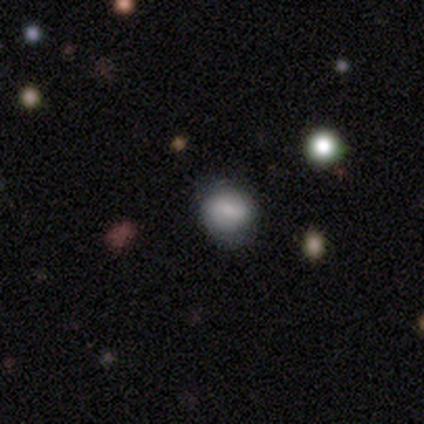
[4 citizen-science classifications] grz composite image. It shows a smooth galaxy with no disk features (100%) that is round (100%). Merging: none (100%).